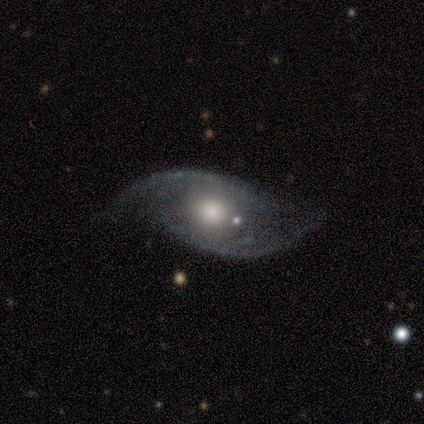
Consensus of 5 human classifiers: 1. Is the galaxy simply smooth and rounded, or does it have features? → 80% featured or disk, 20% smooth, 0% star or artifact.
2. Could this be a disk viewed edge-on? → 100% no, 0% yes.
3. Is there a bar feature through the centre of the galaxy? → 100% no, 0% strong, 0% weak.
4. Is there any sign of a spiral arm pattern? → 50% yes (tied), 50% no (tied).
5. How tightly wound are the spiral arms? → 50% medium (tied), 50% loose (tied), 0% tight.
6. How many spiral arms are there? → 100% 2, 0% 1, 0% 3, 0% 4, 0% more than 4, 0% can't tell.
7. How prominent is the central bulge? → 100% moderate, 0% dominant, 0% large, 0% small, 0% none.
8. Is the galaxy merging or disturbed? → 60% major disturbance, 20% none, 20% merger, 0% minor disturbance.